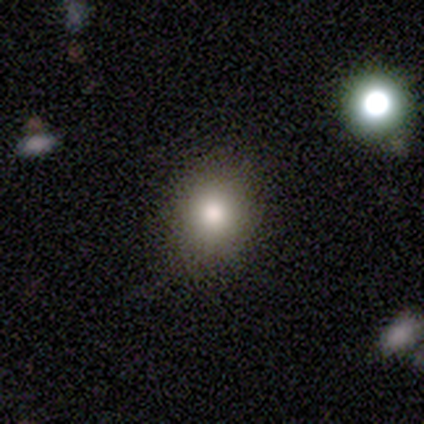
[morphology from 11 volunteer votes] Smooth or featured? smooth (73%)
How rounded? round (62%)
Merging? none (100%)